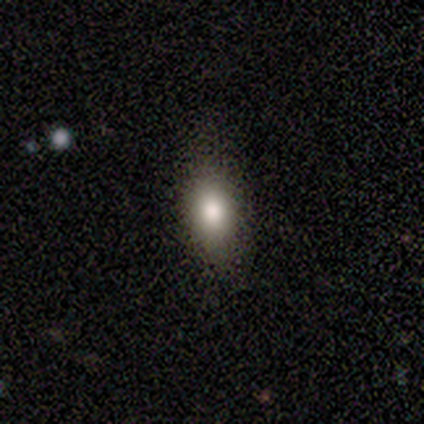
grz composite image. It shows a smooth galaxy with no disk features (71%) that is in between round and cigar-shaped (80%). Merging: none (67%).